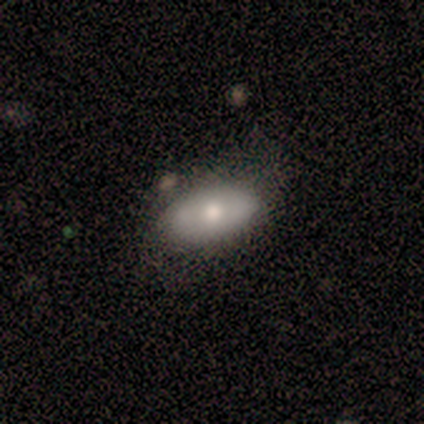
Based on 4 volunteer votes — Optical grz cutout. It shows a smooth galaxy with no disk features (50%, tied with featured or disk) that is in between round and cigar-shaped (100%). Merging: none (50%, tied with major disturbance).